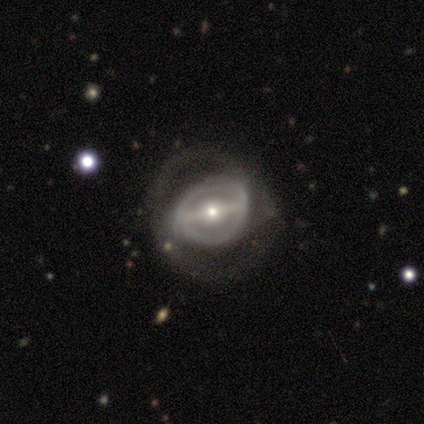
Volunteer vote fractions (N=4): Smooth or featured: featured or disk — 100%
Edge-on disk: yes — 50% (tied with no — 50%)
Edge-on bulge: rounded — 100%
Merging: major disturbance — 75% (minor disturbance — 25%)